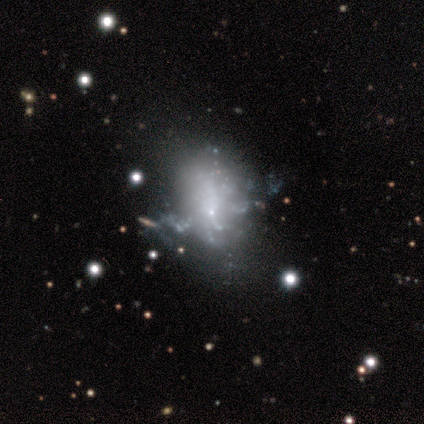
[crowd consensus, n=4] star or artifact 50%, smooth 25%, featured or disk 25%.